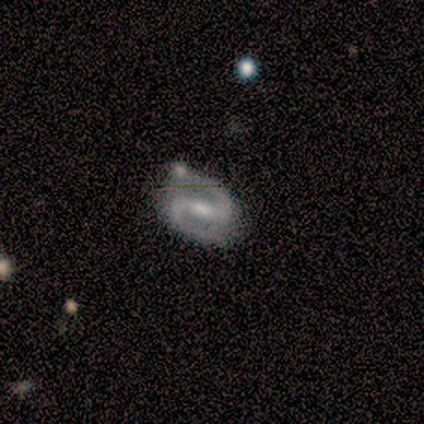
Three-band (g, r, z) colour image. It shows a featured or disk galaxy (100%) with a strong bar (40%, tied with weak), 2 (100%) loose (60%) spiral arms (100%) and a moderate central bulge (40%, tied with small). Merging: none (100%).